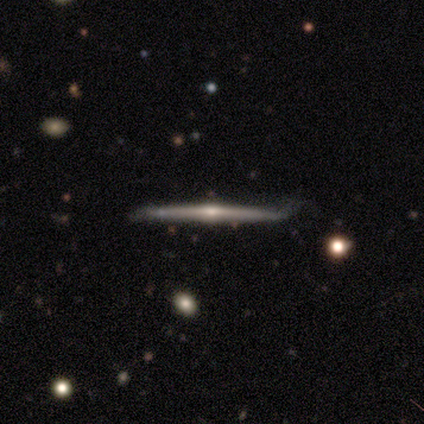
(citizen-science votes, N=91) featured or disk 88%, smooth 10%, star or artifact 2%. Down the decision tree: edge-on disk — yes (96%); edge-on bulge — rounded (79%); merging — none (79%).